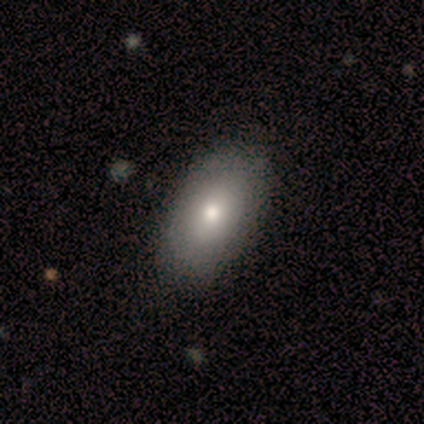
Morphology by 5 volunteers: smooth_or_featured: smooth (p=0.80) [alt: featured or disk p=0.20]
how_rounded: in between (p=1.00)
merging: none (p=1.00)